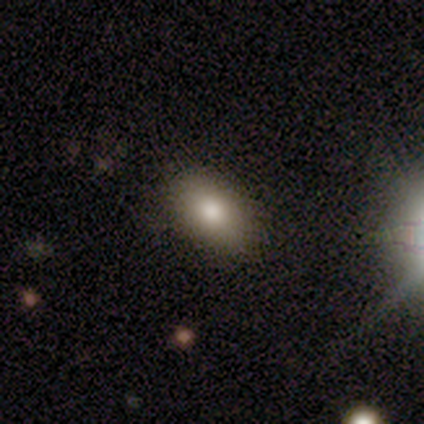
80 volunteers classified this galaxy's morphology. smooth 91%, featured or disk 5%, star or artifact 4%. Down the decision tree: how rounded — in between (93%); merging — none (44%).